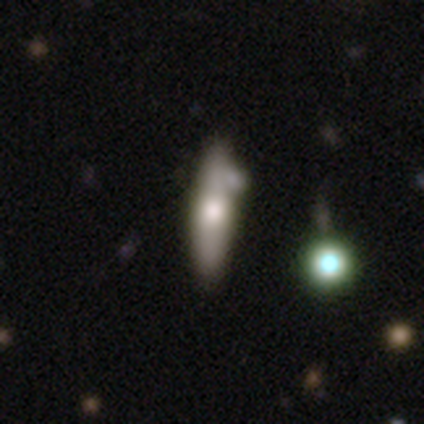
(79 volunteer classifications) featured or disk 48%, smooth 46%, star or artifact 6%. Down the decision tree: edge-on disk — yes (79%); edge-on bulge — rounded (83%); merging — none (36%).